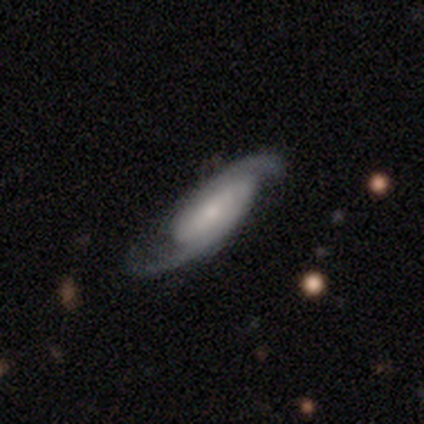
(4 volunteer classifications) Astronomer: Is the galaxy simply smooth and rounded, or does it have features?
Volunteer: featured or disk — 100%.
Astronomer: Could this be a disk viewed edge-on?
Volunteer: yes — 50%, tied with no at 50%.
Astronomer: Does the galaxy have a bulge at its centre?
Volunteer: none — 100%.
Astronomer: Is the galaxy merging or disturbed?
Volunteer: none — 100%.